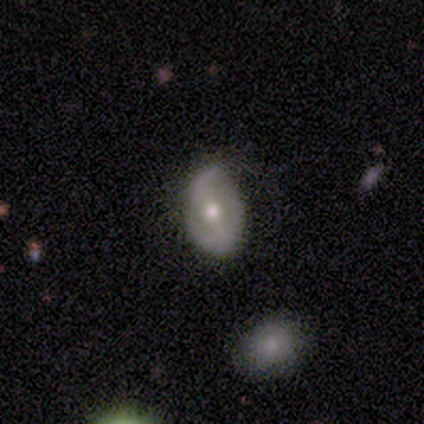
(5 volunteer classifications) Q: Smooth or featured?
A: featured or disk (80%); runner-up: smooth (20%)
Q: Edge-on disk?
A: no (100%)
Q: Bar?
A: no (75%); runner-up: weak (25%)
Q: Spiral arms?
A: yes (75%); runner-up: no (25%)
Q: Spiral winding?
A: medium (67%); runner-up: loose (33%)
Q: Spiral arm count?
A: 2 (100%)
Q: Bulge size?
A: moderate (75%); runner-up: small (25%)
Q: Merging?
A: none (60%); runner-up: minor disturbance (20%)